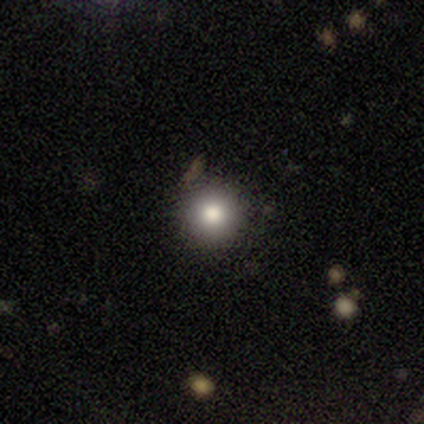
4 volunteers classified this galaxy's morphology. Consensus on every question: smooth or featured — smooth (100%); how rounded — round (100%); merging — none (100%).